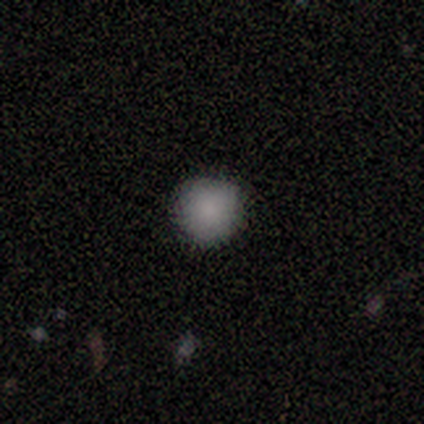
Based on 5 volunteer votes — Smooth or featured?
  - smooth: 100% *
  - featured or disk: 0%
  - star or artifact: 0%
How rounded?
  - round: 100% *
  - in between: 0%
  - cigar-shaped: 0%
Merging?
  - none: 100% *
  - minor disturbance: 0%
  - major disturbance: 0%
  - merger: 0%